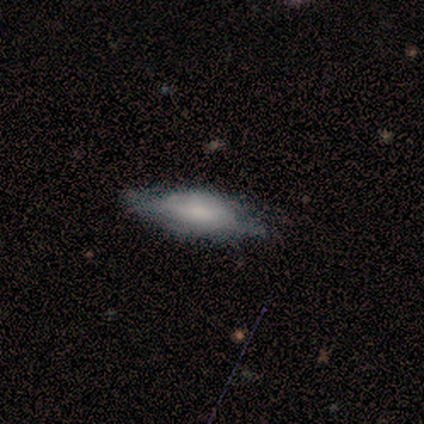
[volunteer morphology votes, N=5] Smooth or featured?
  - smooth: 60% *
  - featured or disk: 40%
  - star or artifact: 0%
How rounded?
  - in between: 67% *
  - cigar-shaped: 33%
  - round: 0%
Merging?
  - none: 100% *
  - minor disturbance: 0%
  - major disturbance: 0%
  - merger: 0%